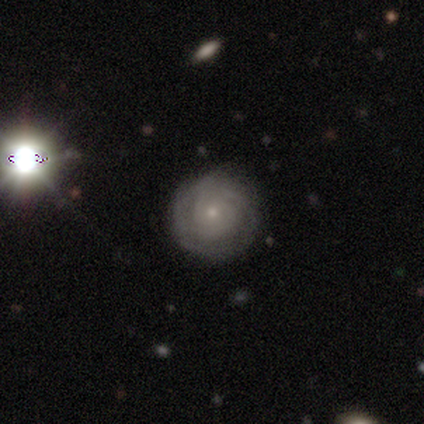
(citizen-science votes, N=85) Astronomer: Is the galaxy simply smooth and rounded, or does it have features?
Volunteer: featured or disk — 71%.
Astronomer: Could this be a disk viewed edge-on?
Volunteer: no — 100%.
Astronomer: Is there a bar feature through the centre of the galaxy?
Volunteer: no — 92%.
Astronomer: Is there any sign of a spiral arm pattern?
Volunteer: yes — 88%.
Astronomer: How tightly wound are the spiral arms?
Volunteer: tight — 77%.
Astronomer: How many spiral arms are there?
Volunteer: can't tell — 43% (runner-up: 2, 25%).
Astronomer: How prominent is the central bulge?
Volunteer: small — 83%.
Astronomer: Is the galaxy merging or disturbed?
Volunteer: none — 90%.